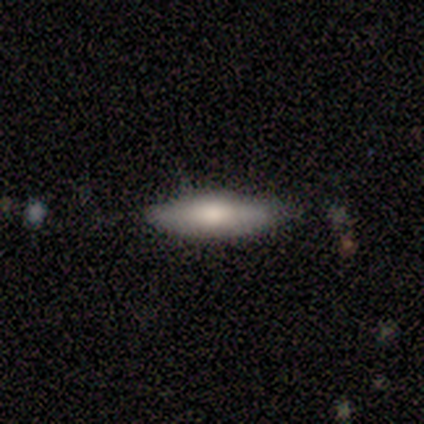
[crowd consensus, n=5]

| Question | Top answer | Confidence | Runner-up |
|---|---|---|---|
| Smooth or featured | smooth | 80% | featured or disk (20%) |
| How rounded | cigar-shaped | 100% | — |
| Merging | none | 80% | minor disturbance (20%) |